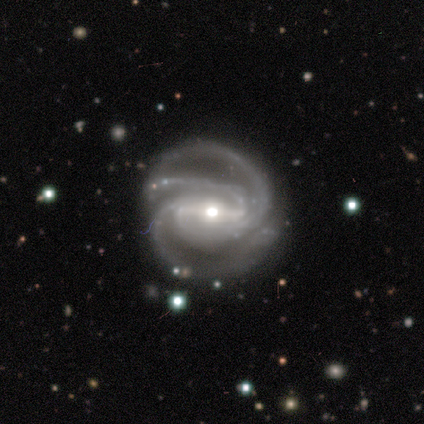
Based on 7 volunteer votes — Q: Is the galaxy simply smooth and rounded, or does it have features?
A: featured or disk — 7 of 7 (100%).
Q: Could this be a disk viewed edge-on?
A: no — 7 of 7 (100%).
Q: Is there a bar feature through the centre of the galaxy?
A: strong — 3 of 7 (43%, tied with weak).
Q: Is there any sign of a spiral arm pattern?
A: yes — 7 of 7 (100%).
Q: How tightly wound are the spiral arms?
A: medium — 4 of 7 (57%).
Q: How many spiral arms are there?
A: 3 — 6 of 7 (86%).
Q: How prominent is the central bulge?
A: small — 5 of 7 (71%).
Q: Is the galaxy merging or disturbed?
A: none — 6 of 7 (86%).